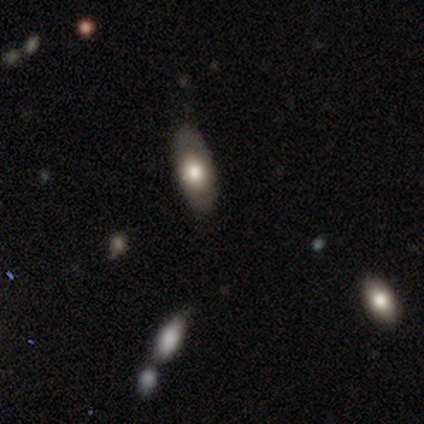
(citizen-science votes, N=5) Volunteers were most divided on "smooth or featured": smooth: 80%, featured or disk: 20%, star or artifact: 0%. More confident: how rounded — in between (100%); merging — none (80%).